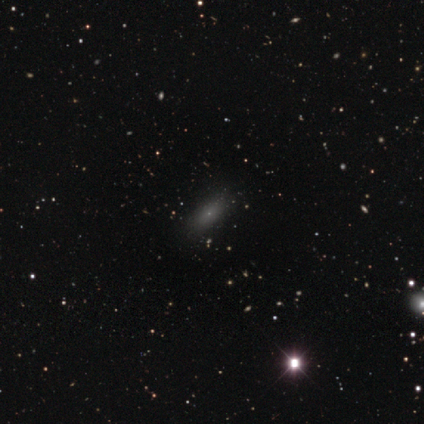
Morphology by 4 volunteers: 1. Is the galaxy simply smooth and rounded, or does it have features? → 75% smooth, 25% star or artifact, 0% featured or disk.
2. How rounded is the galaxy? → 67% cigar-shaped, 33% in between, 0% round.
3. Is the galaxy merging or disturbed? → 67% none, 33% major disturbance, 0% minor disturbance, 0% merger.